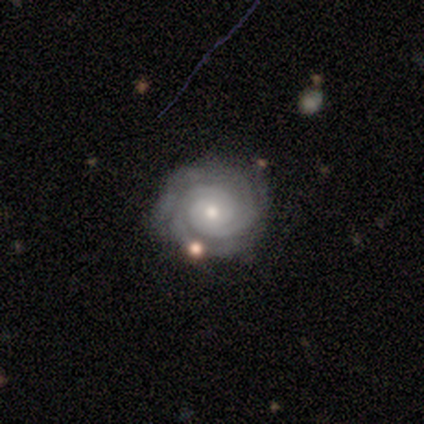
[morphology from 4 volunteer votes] smooth_or_featured: featured or disk (p=1.00)
disk_edge_on: no (p=1.00)
bar: no (p=1.00)
has_spiral_arms: yes (p=1.00)
spiral_winding: tight (p=1.00)
spiral_arm_count: 2 (p=0.50) [alt: 3 p=0.25]
bulge_size: small (p=1.00)
merging: none (p=1.00)